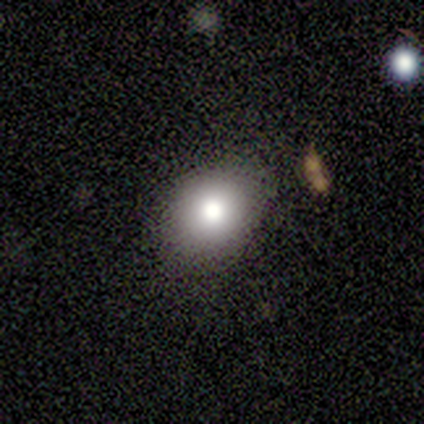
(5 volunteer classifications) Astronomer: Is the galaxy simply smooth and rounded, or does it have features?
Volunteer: smooth — 80%.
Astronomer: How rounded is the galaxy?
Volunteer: round — 75%.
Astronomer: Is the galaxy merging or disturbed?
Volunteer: none — 100%.